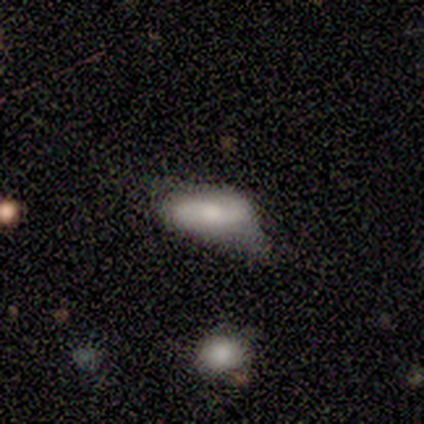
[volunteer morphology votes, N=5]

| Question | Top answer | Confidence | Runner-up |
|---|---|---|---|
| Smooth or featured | smooth | 100% | — |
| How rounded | in between | 60% | cigar-shaped (40%) |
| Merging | minor disturbance | 80% | none (20%) |